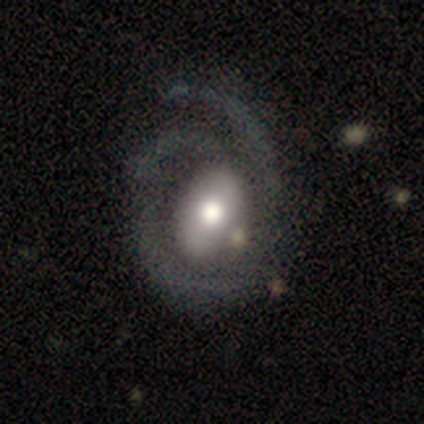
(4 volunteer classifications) smooth 75%, featured or disk 25%, star or artifact 0%. Down the decision tree: how rounded — round (100%); merging — major disturbance (75%).